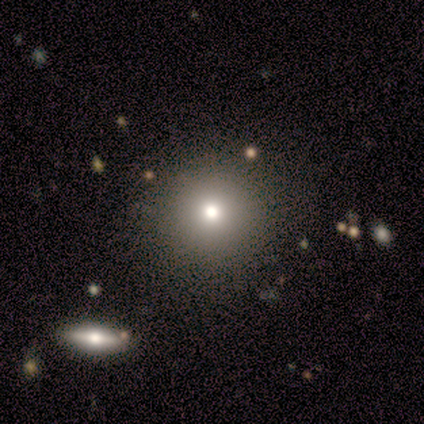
smooth-or-featured: smooth: 100% | featured or disk: 0% | star or artifact: 0%
  how-rounded: round: 80% | in between: 20% | cigar-shaped: 0%
  merging: none: 60% | minor disturbance: 20% | major disturbance: 20% | merger: 0%